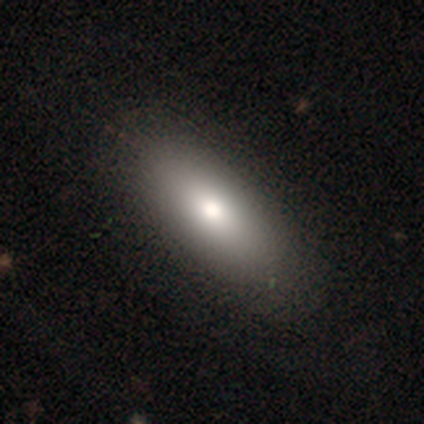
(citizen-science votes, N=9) Morphology: type=smooth (78%); roundness=in between (57%); merging=none (100%).